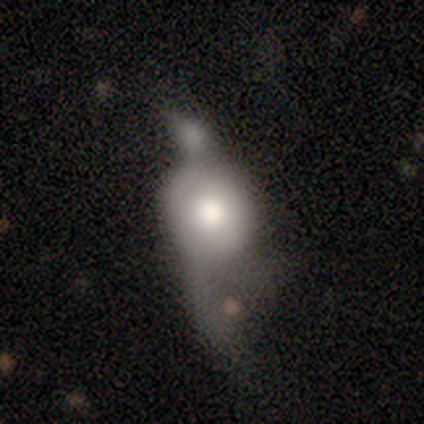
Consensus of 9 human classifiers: A smooth galaxy with no disk features (67%) that is in between round and cigar-shaped (50%). Merging: major disturbance (57%).